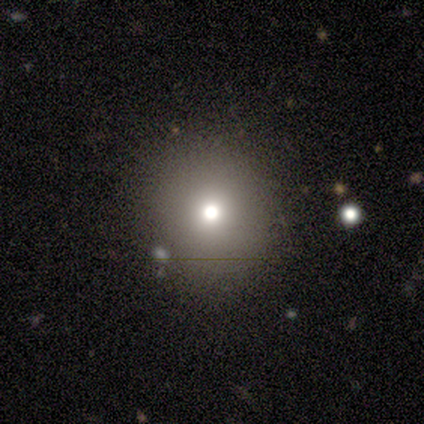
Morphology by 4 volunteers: A smooth galaxy with no disk features (75%) that is in between round and cigar-shaped (67%). Merging: none (100%).